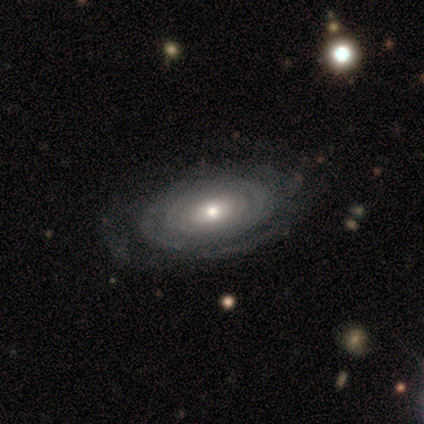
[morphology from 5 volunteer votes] Overall: featured or disk (100%). Edge-on disk: no (100%). Bar: no (80%). Spiral arms: yes (100%). Spiral arm count: can't tell (60%; 3 20%). Spiral winding: tight (80%). Bulge size: moderate (80%). Merging: none (80%).